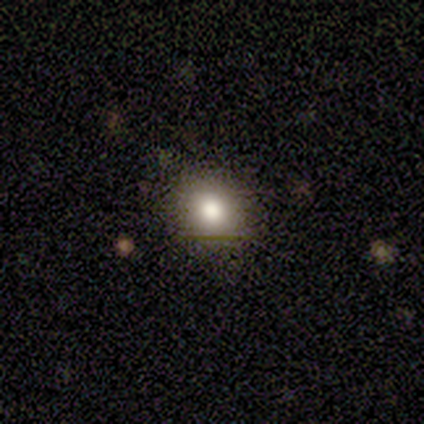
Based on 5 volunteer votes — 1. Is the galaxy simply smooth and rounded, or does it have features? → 100% smooth, 0% featured or disk, 0% star or artifact.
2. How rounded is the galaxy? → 80% round, 20% in between, 0% cigar-shaped.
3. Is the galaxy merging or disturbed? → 80% none, 20% minor disturbance, 0% major disturbance, 0% merger.